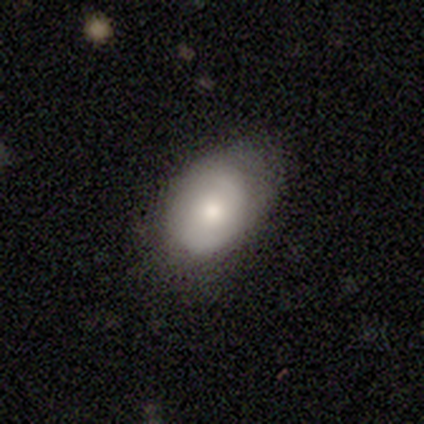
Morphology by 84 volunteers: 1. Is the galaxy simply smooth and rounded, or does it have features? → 63% smooth, 35% featured or disk, 2% star or artifact.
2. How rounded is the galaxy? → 87% in between, 13% round, 0% cigar-shaped.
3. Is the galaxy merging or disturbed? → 56% none, 32% minor disturbance, 11% major disturbance, 1% merger.